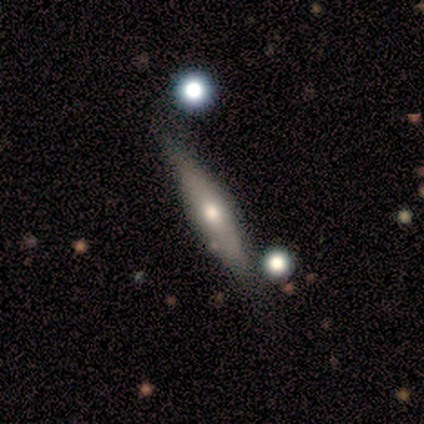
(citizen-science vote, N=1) A featured or disk galaxy (100%) viewed edge-on (100%) with a rounded central bulge (100%).

Vote fractions:
- Smooth or featured? featured or disk: 100% / smooth: 0% / star or artifact: 0%
- Edge-on disk? yes: 100% / no: 0%
- Edge-on bulge? rounded: 100% / boxy: 0% / none: 0%
- Merging? none: 100% / minor disturbance: 0% / major disturbance: 0% / merger: 0%